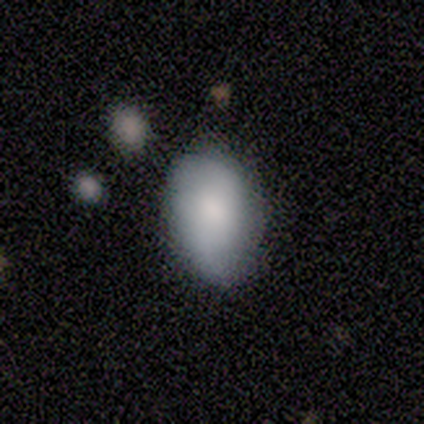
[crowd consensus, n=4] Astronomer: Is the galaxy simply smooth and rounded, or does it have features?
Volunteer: featured or disk — 75%.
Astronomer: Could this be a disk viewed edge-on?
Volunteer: no — 100%.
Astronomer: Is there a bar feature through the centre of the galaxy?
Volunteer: no — 67%.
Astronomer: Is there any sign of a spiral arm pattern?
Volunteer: yes — 67%.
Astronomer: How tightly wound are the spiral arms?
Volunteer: medium — 50%, tied with loose at 50%.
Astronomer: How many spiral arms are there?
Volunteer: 2 — 100%.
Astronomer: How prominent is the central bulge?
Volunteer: small — 67%.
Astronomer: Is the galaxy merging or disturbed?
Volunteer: none — 75%.